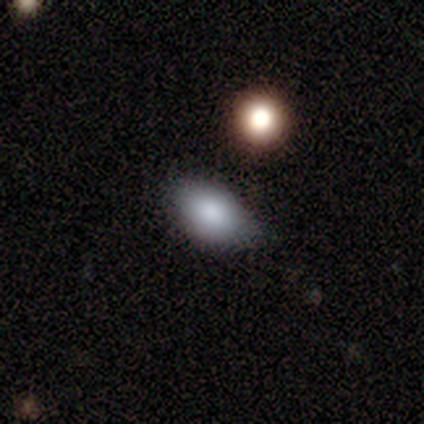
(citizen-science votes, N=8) smooth 75%, featured or disk 12%, star or artifact 12%. Down the decision tree: how rounded — in between (67%); merging — none (71%).